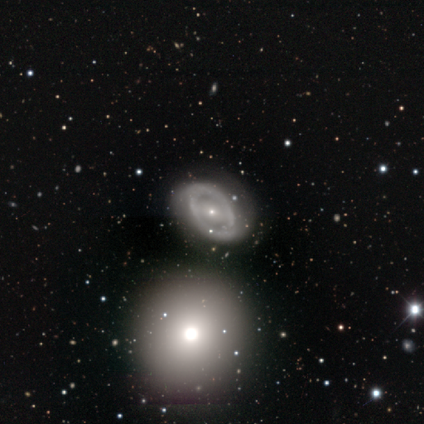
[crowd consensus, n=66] Smooth or featured?
  - featured or disk: 79% *
  - smooth: 11%
  - star or artifact: 11%
Edge-on disk?
  - no: 98% *
  - yes: 2%
Bar?
  - weak: 39% *
  - no: 33%
  - strong: 27%
Spiral arms?
  - yes: 57% *
  - no: 43%
Spiral winding?
  - medium: 52% *
  - tight: 38%
  - loose: 10%
Spiral arm count?
  - 2: 90% *
  - can't tell: 7%
  - 1: 3%
  - 3: 0%
  - 4: 0%
  - more than 4: 0%
Bulge size?
  - small: 69% *
  - moderate: 24%
  - large: 4%
  - none: 4%
  - dominant: 0%
Merging?
  - none: 68% *
  - minor disturbance: 19%
  - major disturbance: 7%
  - merger: 7%